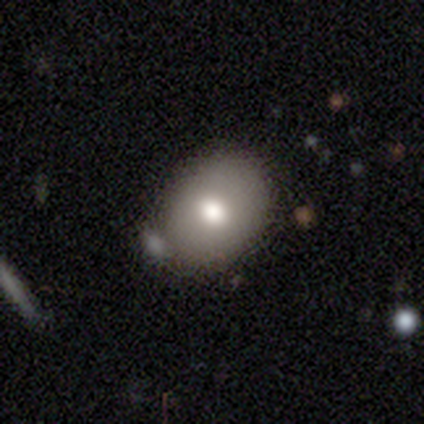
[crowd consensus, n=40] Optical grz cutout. It shows a smooth galaxy with no disk features (78%) that is in between round and cigar-shaped (71%). Merging: none (74%).